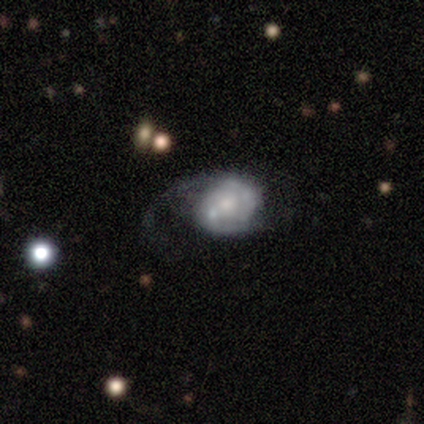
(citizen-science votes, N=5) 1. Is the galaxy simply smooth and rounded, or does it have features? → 60% featured or disk, 40% smooth, 0% star or artifact.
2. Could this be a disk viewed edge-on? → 100% no, 0% yes.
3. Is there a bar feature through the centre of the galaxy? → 67% no, 33% weak, 0% strong.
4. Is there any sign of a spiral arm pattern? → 67% yes, 33% no.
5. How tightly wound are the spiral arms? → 50% medium (tied), 50% loose (tied), 0% tight.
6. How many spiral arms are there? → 100% 1, 0% 2, 0% 3, 0% 4, 0% more than 4, 0% can't tell.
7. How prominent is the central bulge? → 33% moderate (tied), 33% small (tied), 33% none (tied), 0% dominant, 0% large.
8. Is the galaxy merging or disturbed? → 40% major disturbance, 20% none, 20% minor disturbance, 20% merger.